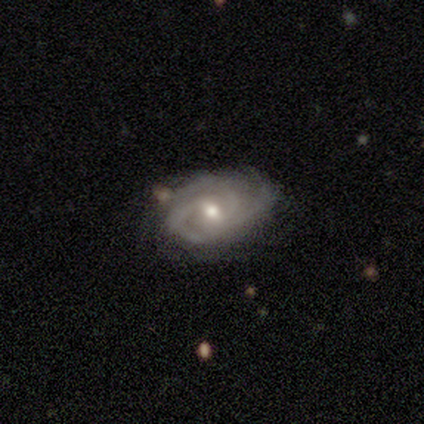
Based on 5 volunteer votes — smooth-or-featured: featured or disk: 100% | smooth: 0% | star or artifact: 0%
  disk-edge-on: no: 100% | yes: 0%
    bar: weak: 100% | strong: 0% | no: 0%
    has-spiral-arms: yes: 100% | no: 0%
      spiral-winding: tight: 60% | medium: 40% | loose: 0%
      spiral-arm-count: 3: 60% | 4: 20% | can't tell: 20% | 1: 0% | 2: 0% | more than 4: 0%
    bulge-size: moderate: 100% | dominant: 0% | large: 0% | small: 0% | none: 0%
  merging: none: 60% | minor disturbance: 40% | major disturbance: 0% | merger: 0%